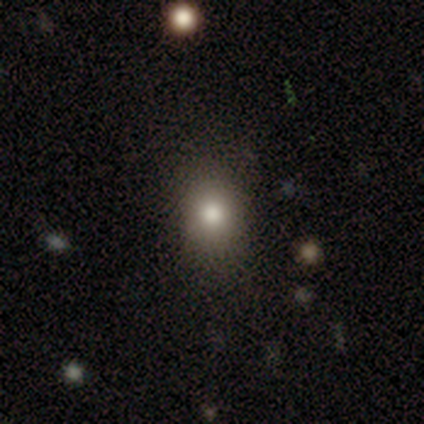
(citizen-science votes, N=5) Smooth or featured? 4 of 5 (80%) said smooth. How rounded? 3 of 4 (75%) said round. Merging? 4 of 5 (80%) said none.